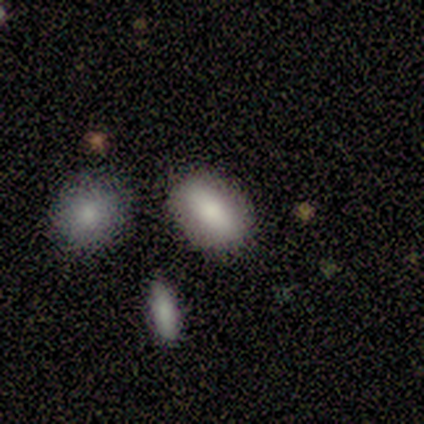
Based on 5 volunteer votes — Smooth or featured: smooth — 40% (tied with star or artifact — 40%)
How rounded: in between — 100%
Merging: none — 100%